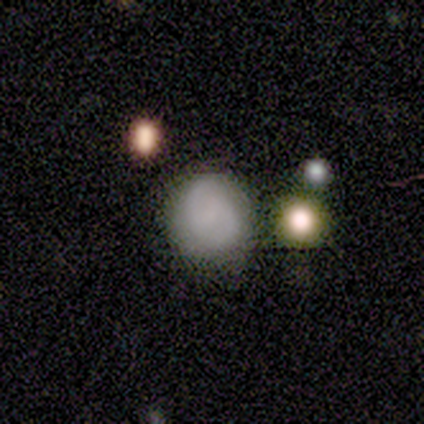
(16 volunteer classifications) This is likely a smooth galaxy (69%). How rounded: clearly round (82%). Merging: clearly none (88%).